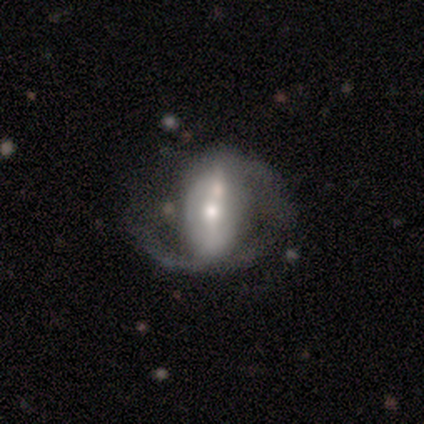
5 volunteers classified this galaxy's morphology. Smooth or featured? 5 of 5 (100%) said featured or disk. Edge-on disk? 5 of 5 (100%) said no. Bar? 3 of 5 (60%) said strong. Spiral arms? 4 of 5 (80%) said yes. Spiral winding? 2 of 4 (50%) said medium. Spiral arm count? 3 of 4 (75%) said 2. Bulge size? 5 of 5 (100%) said moderate. Merging? 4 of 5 (80%) said none.